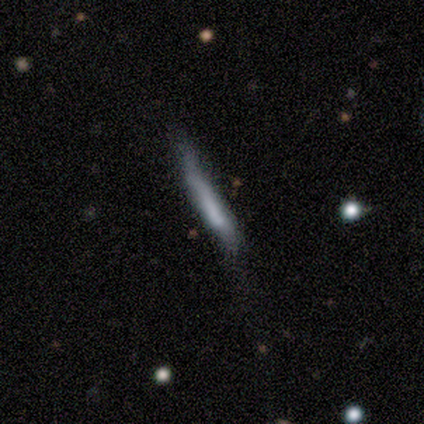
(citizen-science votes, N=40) smooth-or-featured: smooth: 52% | featured or disk: 38% | star or artifact: 10%
  how-rounded: cigar-shaped: 100% | round: 0% | in between: 0%
  merging: none: 50% | major disturbance: 31% | minor disturbance: 17% | merger: 3%